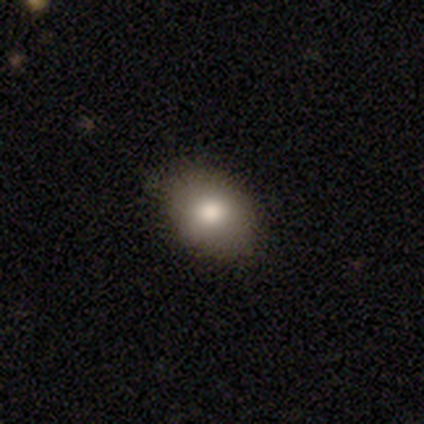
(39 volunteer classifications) A smooth galaxy with no disk features (72%) that is in between round and cigar-shaped (82%).

Vote fractions:
- Smooth or featured? smooth: 72% / featured or disk: 21% / star or artifact: 8%
- How rounded? in between: 82% / round: 18% / cigar-shaped: 0%
- Merging? none: 75% / minor disturbance: 11% / major disturbance: 8% / merger: 6%